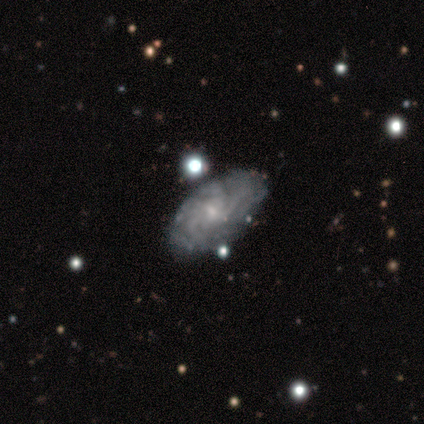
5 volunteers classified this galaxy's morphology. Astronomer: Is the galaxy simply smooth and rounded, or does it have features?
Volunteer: featured or disk — 80%.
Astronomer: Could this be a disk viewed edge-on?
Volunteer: no — 100%.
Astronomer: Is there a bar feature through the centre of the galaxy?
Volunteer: no — 75%.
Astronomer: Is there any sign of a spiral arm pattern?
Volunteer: yes — 75%.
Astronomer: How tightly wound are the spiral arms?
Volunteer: tight — 100%.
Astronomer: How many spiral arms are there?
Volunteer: can't tell — 67%.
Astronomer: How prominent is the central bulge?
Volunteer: small — 100%.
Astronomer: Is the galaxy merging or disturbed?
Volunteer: none — 60%.